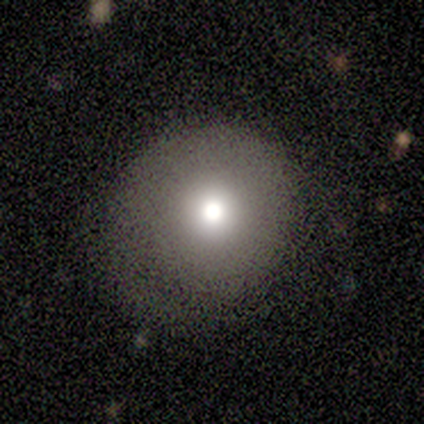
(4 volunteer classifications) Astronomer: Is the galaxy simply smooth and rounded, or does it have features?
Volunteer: smooth — 75%.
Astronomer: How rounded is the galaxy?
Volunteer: round — 100%.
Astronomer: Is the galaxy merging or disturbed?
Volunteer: none — 100%.